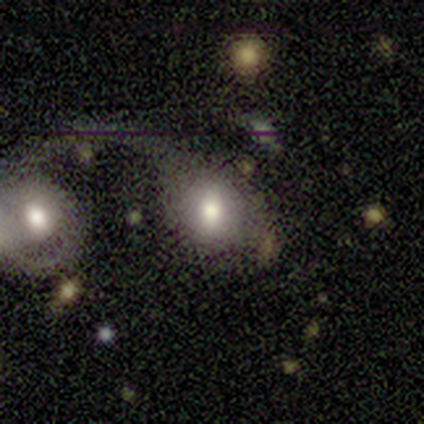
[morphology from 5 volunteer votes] featured or disk 80%, smooth 20%, star or artifact 0%. Down the decision tree: edge-on disk — no (100%); bar — weak (75%); spiral arms — no (75%); bulge size — large (75%); merging — merger (40%).